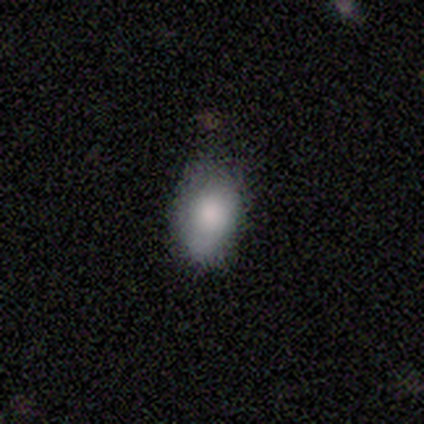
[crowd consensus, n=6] This appears to be a smooth galaxy with no disk features (100%) that is in between round and cigar-shaped (100%). Merging: none (67%).